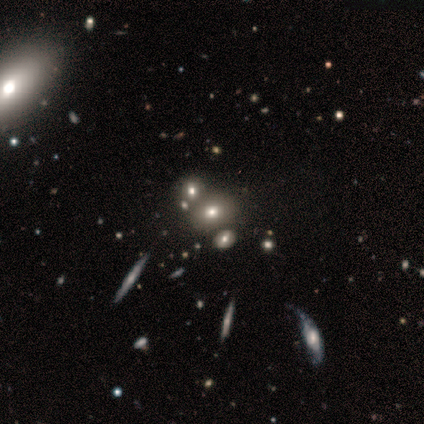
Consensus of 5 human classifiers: Smooth or featured? smooth (60%)
How rounded? in between (100%)
Merging? none (75%)